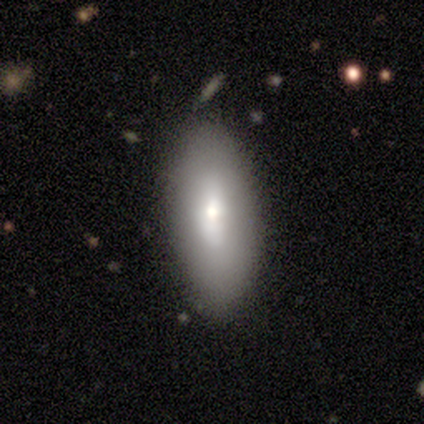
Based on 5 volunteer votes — Smooth or featured? smooth (80%)
How rounded? in between (100%)
Merging? none (80%)